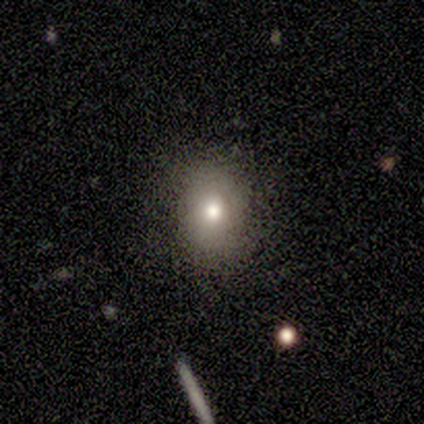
smooth-or-featured: smooth: 100% | featured or disk: 0% | star or artifact: 0%
  how-rounded: round: 100% | in between: 0% | cigar-shaped: 0%
  merging: none: 80% | minor disturbance: 20% | major disturbance: 0% | merger: 0%